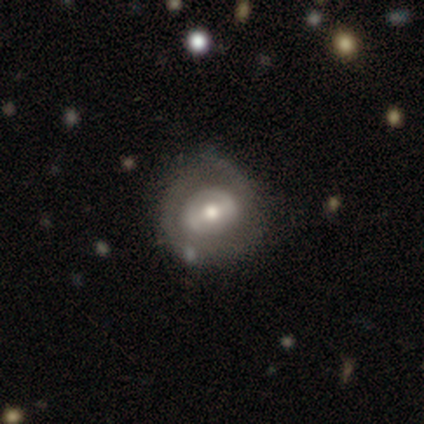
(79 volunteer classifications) featured or disk 68%, smooth 25%, star or artifact 6%. Down the decision tree: edge-on disk — no (98%); bar — weak (42%); spiral arms — no (58%); bulge size — moderate (68%); merging — none (31%).